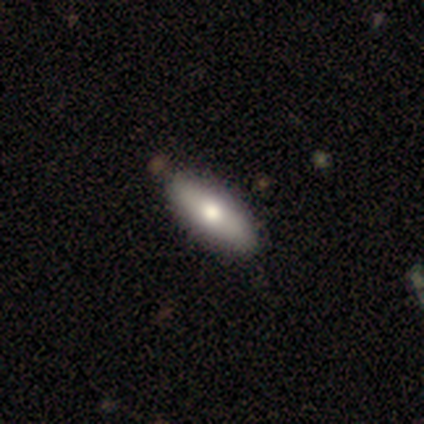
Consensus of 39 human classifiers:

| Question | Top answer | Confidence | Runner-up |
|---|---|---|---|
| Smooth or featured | smooth | 64% | featured or disk (28%) |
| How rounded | in between | 80% | cigar-shaped (20%) |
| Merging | none | 64% | merger (8%) |